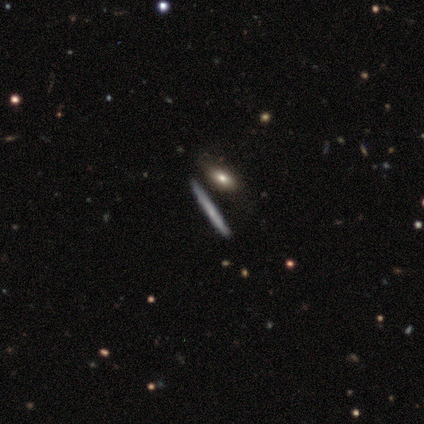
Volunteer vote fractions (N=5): Volunteers were most divided on "smooth or featured" (2-way tie): smooth: 40%, featured or disk: 40%, star or artifact: 20%. More confident: how rounded — cigar-shaped (100%); merging — none (50%).